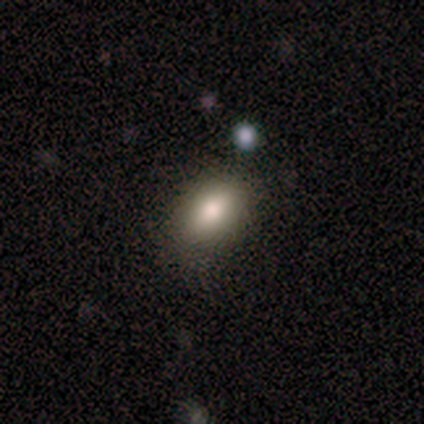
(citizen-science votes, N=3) Smooth or featured: smooth — 100%
How rounded: in between — 67% (round — 33%)
Merging: none — 100%